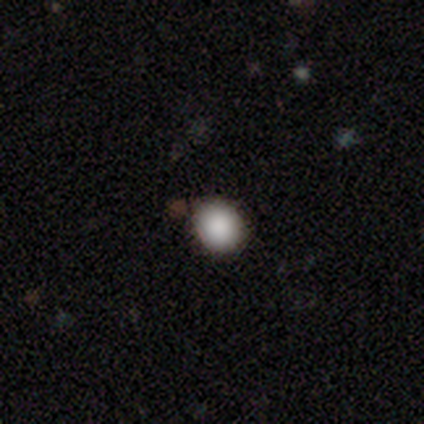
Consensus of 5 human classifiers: Smooth or featured? smooth (100%)
How rounded? round (80%)
Merging? none (100%)